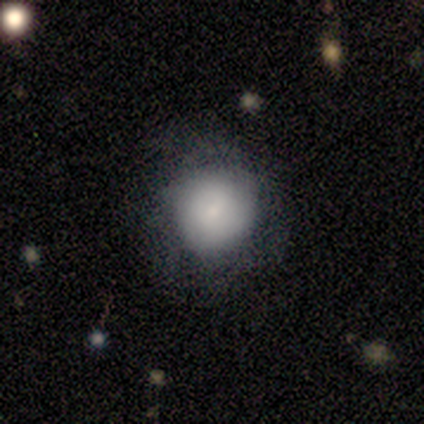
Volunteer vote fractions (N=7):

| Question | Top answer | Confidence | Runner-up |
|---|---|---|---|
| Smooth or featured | smooth | 43% | featured or disk (29%) |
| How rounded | round | 100% | — |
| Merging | none | 40% | tied: minor disturbance (40%) |